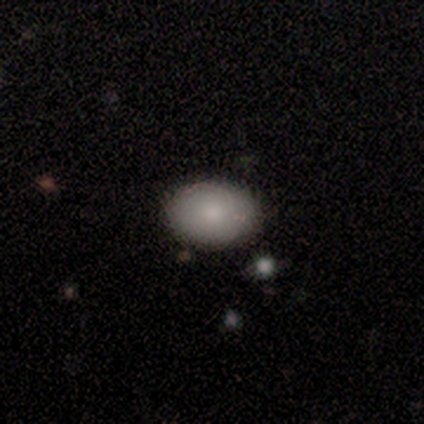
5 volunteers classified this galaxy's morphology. smooth 80%, featured or disk 20%, star or artifact 0%. Down the decision tree: how rounded — in between (75%); merging — none (100%).